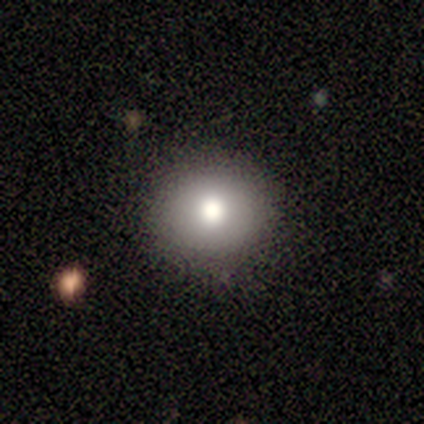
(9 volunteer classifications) This is likely a smooth galaxy (78%). How rounded: clearly round (100%). Merging: clearly none (86%).